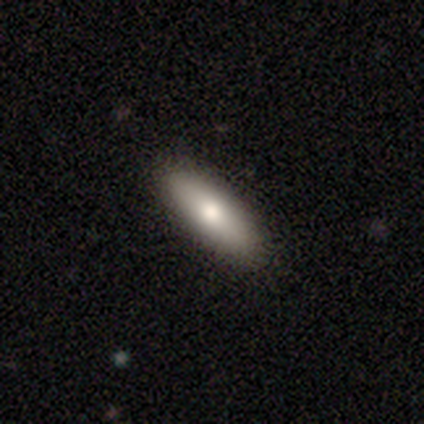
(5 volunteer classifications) Smooth or featured?
  - smooth: 100% *
  - featured or disk: 0%
  - star or artifact: 0%
How rounded?
  - in between: 100% *
  - round: 0%
  - cigar-shaped: 0%
Merging?
  - none: 80% *
  - minor disturbance: 20%
  - major disturbance: 0%
  - merger: 0%